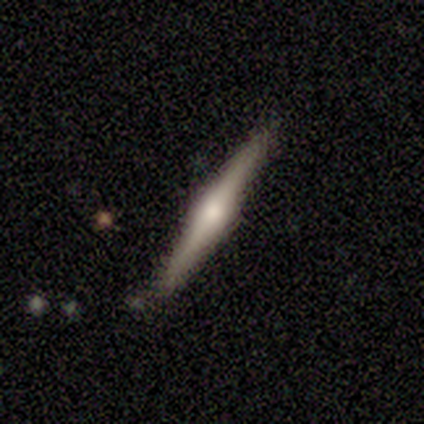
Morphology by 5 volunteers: smooth-or-featured: featured or disk: 80% | smooth: 20% | star or artifact: 0%
  disk-edge-on: yes: 75% | no: 25%
    edge-on-bulge: rounded: 100% | boxy: 0% | none: 0%
  merging: none: 100% | minor disturbance: 0% | major disturbance: 0% | merger: 0%